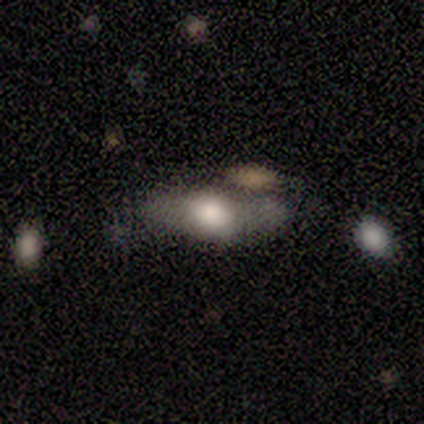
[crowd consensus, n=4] smooth-or-featured: smooth: 50% | featured or disk: 25% | star or artifact: 25%
  how-rounded: cigar-shaped: 100% | round: 0% | in between: 0%
  merging: minor disturbance: 67% | major disturbance: 33% | none: 0% | merger: 0%